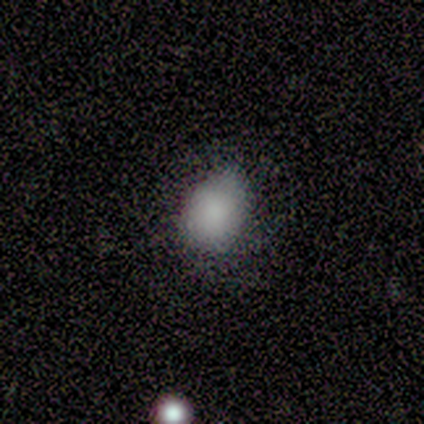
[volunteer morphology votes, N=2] This appears to be a smooth galaxy with no disk features (50%, tied with featured or disk) that is round (100%). Merging: none (50%, tied with minor disturbance).